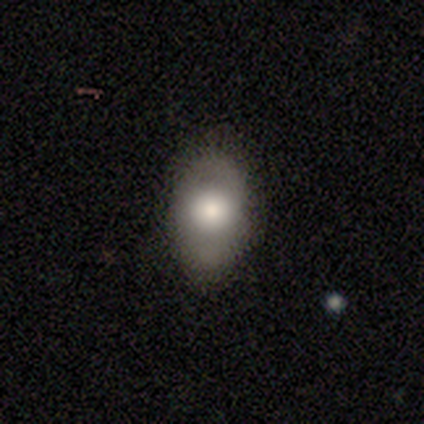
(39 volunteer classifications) Overall: smooth (72%). How rounded: in between (96%). Merging: none (95%).